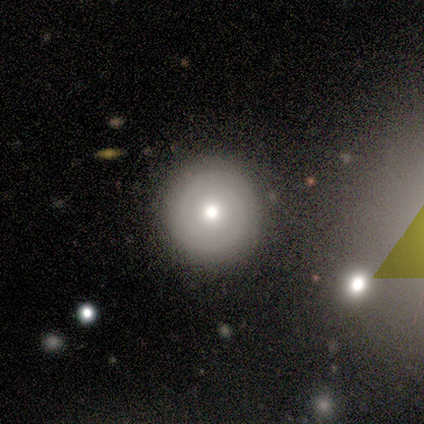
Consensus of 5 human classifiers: This is likely a featured or disk galaxy (60%). It is clearly not viewed edge-on (100%). Bar: likely no (67%). Spiral arm pattern: clearly yes (100%). Spiral arm count: clearly 2 (100%). Spiral winding: likely tight (67%). Central bulge: clearly moderate (100%). Merging: clearly none (100%).